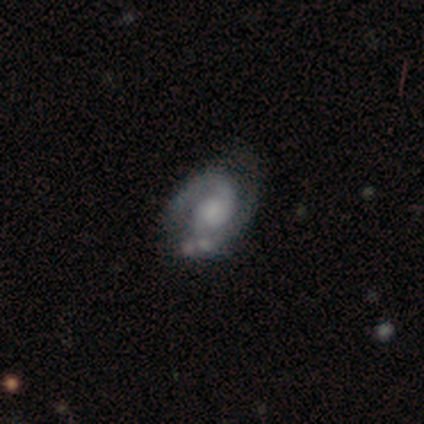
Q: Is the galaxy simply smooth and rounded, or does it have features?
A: featured or disk — 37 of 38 (97%).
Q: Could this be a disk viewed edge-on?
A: no — 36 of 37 (97%).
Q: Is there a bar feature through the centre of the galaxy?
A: no — 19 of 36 (53%).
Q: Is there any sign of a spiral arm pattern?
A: yes — 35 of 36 (97%).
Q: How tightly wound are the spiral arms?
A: medium — 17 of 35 (49%).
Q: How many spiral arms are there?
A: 2 — 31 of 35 (89%).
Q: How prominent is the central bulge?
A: none — 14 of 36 (39%).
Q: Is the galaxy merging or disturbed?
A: none — 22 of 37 (59%).